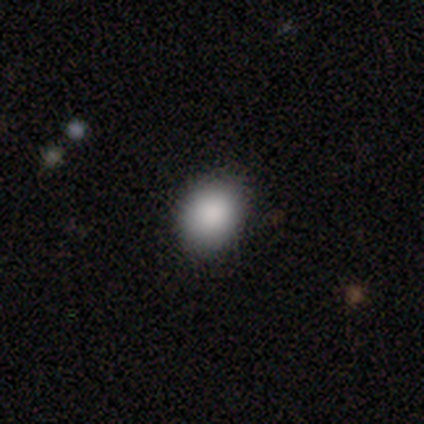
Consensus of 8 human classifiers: Volunteers were most divided on "how rounded": in between: 57%, round: 43%, cigar-shaped: 0%. More confident: merging — none (100%); smooth or featured — smooth (88%).